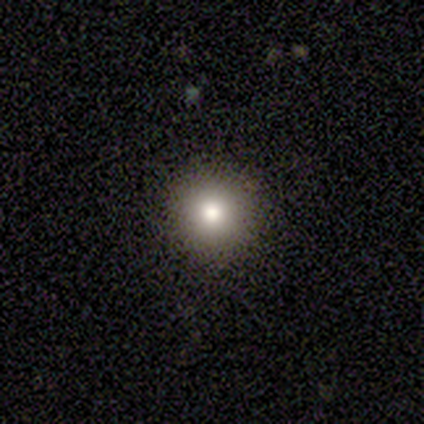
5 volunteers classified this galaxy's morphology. type=smooth (80%); roundness=round (100%); merging=none (100%).